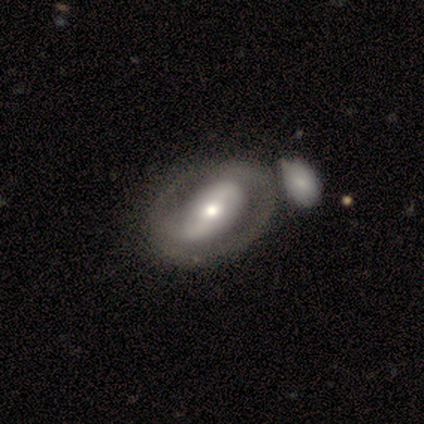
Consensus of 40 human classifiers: This is likely a featured or disk galaxy (70%). It is clearly not viewed edge-on (96%). Bar: marginally strong (44%). Spiral arm pattern: likely yes (78%). Spiral arm count: likely 2 (67%). Spiral winding: possibly tight (48%). Central bulge: likely moderate (67%). Merging: marginally none (36%).